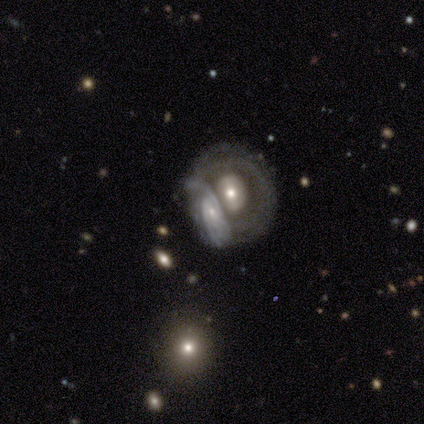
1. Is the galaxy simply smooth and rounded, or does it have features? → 80% featured or disk, 20% smooth, 0% star or artifact.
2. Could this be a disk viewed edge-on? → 100% no, 0% yes.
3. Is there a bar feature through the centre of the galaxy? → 100% no, 0% strong, 0% weak.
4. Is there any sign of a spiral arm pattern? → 50% yes (tied), 50% no (tied).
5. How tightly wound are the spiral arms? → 50% tight (tied), 50% medium (tied), 0% loose.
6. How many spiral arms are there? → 50% 3 (tied), 50% can't tell (tied), 0% 1, 0% 2, 0% 4, 0% more than 4.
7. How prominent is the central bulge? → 50% large (tied), 50% small (tied), 0% dominant, 0% moderate, 0% none.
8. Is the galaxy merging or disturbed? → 60% merger, 40% none, 0% minor disturbance, 0% major disturbance.